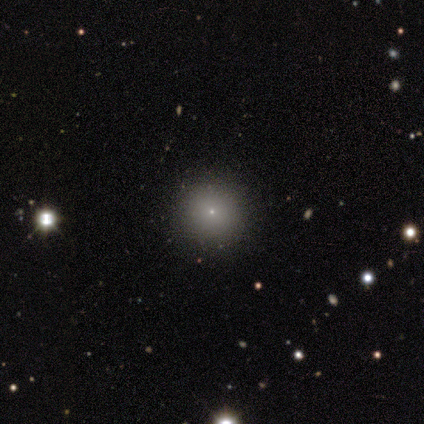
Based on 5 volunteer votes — smooth_or_featured: smooth (p=0.40) [tied with: featured or disk p=0.40]
how_rounded: round (p=1.00)
merging: none (p=1.00)